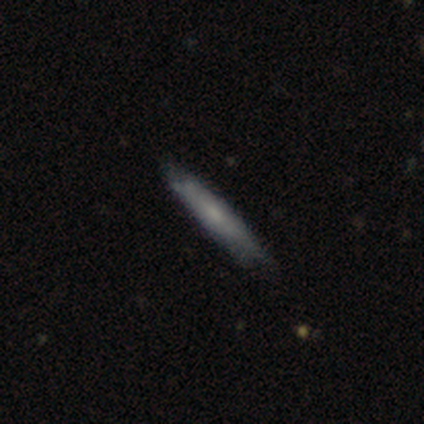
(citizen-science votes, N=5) This is clearly a smooth galaxy (80%). How rounded: clearly cigar-shaped (100%). Merging: likely minor disturbance (60%).